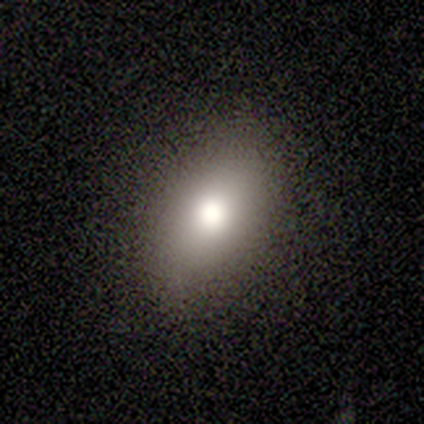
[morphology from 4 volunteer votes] Volunteers were most divided on "how rounded": in between: 50%, round: 25%, cigar-shaped: 25%. More confident: smooth or featured — smooth (100%); merging — none (75%).